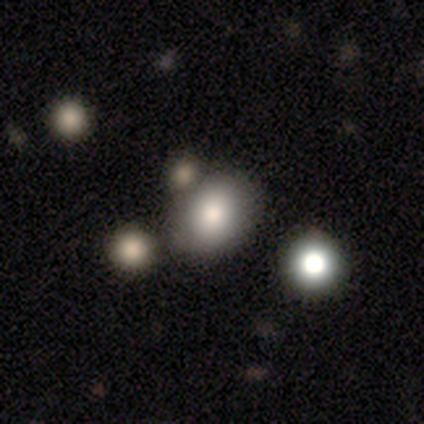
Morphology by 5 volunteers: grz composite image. It shows a smooth galaxy with no disk features (60%) that is in between round and cigar-shaped (67%). Merging: none (100%).